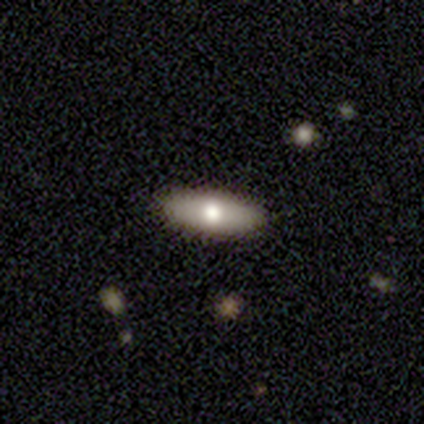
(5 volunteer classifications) smooth_or_featured: featured or disk (p=0.60) [alt: smooth p=0.20]
disk_edge_on: yes (p=0.67) [alt: no p=0.33]
edge_on_bulge: rounded (p=1.00)
merging: none (p=1.00)